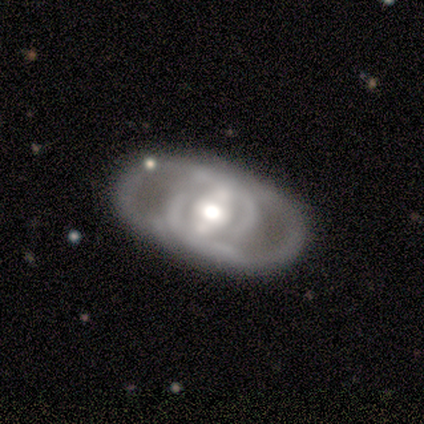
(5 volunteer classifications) Smooth or featured?
  - featured or disk: 100% *
  - smooth: 0%
  - star or artifact: 0%
Edge-on disk?
  - no: 100% *
  - yes: 0%
Bar?
  - weak: 40% * (tied)
  - no: 40% * (tied)
  - strong: 20%
Spiral arms?
  - no: 80% *
  - yes: 20%
Bulge size?
  - moderate: 80% *
  - large: 20%
  - dominant: 0%
  - small: 0%
  - none: 0%
Merging?
  - none: 60% *
  - minor disturbance: 20%
  - merger: 20%
  - major disturbance: 0%